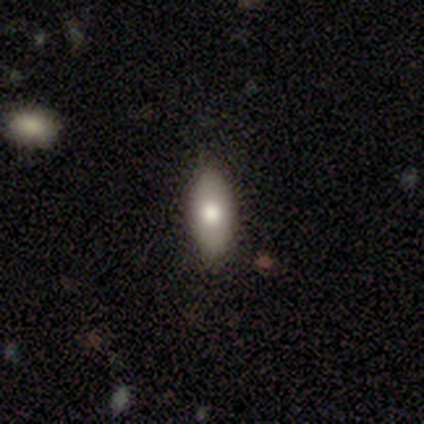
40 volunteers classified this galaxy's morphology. Volunteers were most divided on "smooth or featured": smooth: 62%, featured or disk: 20%, star or artifact: 18%. More confident: merging — none (97%); how rounded — in between (84%).